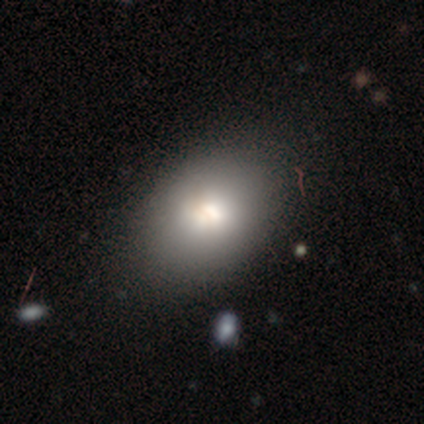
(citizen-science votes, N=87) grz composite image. It shows a smooth galaxy with no disk features (80%) that is in between round and cigar-shaped (73%). Merging: none (83%).